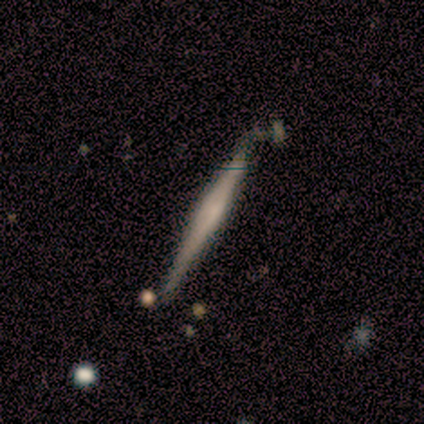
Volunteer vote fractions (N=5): Overall: featured or disk (60%; smooth 40%). Edge-on disk: yes (100%). Edge-on bulge: none (67%; rounded 33%). Merging: none (60%; minor disturbance 20%).